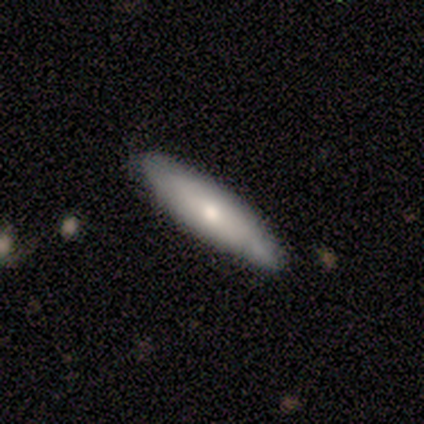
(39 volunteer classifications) Smooth or featured? 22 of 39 (56%) said smooth. How rounded? 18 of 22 (82%) said cigar-shaped. Merging? 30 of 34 (88%) said none.